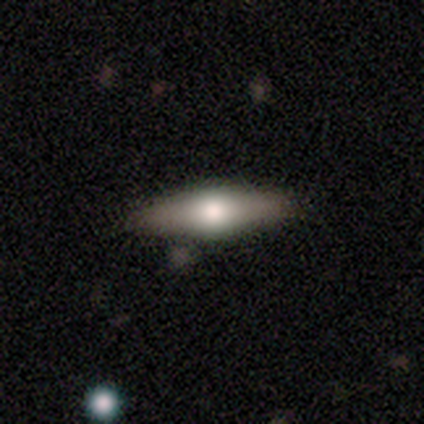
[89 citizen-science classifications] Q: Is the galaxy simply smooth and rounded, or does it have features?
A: featured or disk — 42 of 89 (47%).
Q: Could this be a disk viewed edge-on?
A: yes — 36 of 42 (86%).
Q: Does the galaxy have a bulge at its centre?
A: rounded — 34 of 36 (94%).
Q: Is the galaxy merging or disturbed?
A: none — 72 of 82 (88%).